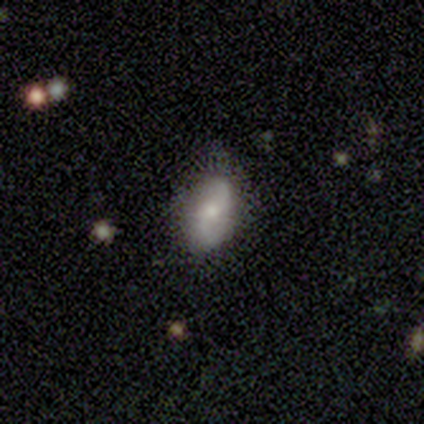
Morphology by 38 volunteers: This appears to be a featured or disk galaxy (61%) with no bar (57%), 2 (100%) loose (65%) spiral arms (100%) and a moderate central bulge (48%, tied with small). Merging: none (75%).